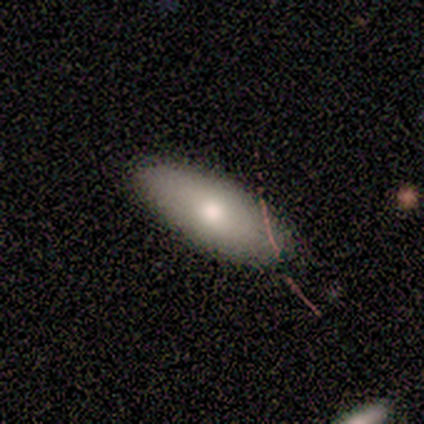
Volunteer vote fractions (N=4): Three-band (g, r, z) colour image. It shows a smooth galaxy with no disk features (75%) that is in between round and cigar-shaped (67%). Merging: none (75%).